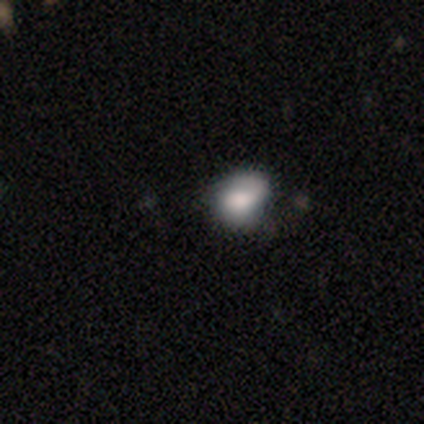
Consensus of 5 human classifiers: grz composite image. It shows a smooth galaxy with no disk features (100%) that is round (60%). Merging: minor disturbance (60%).